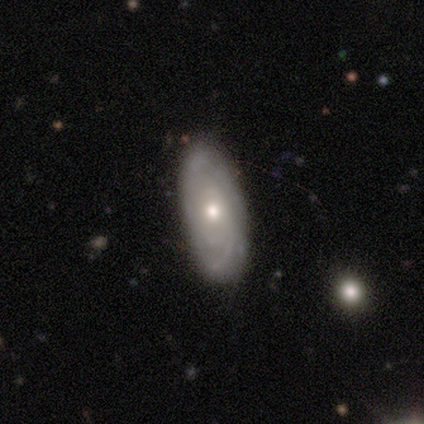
smooth_or_featured: featured or disk (p=0.65) [alt: smooth p=0.22]
disk_edge_on: no (p=0.92) [alt: yes p=0.08]
bar: no (p=0.86) [alt: weak p=0.09]
has_spiral_arms: yes (p=0.91) [alt: no p=0.09]
spiral_winding: tight (p=0.45) [alt: medium p=0.35]
spiral_arm_count: can't tell (p=0.70) [alt: 2 p=0.20]
bulge_size: moderate (p=0.59) [alt: large p=0.18]
merging: none (p=0.53) [alt: minor disturbance p=0.09]